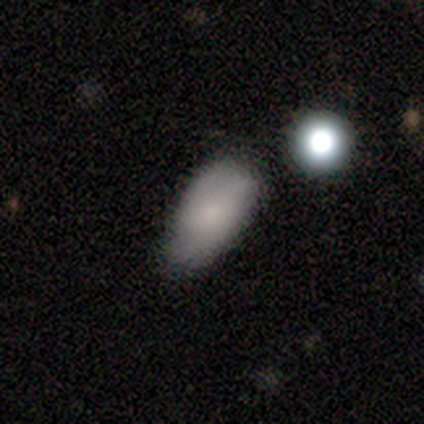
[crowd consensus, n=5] Smooth or featured? smooth (80%)
How rounded? round (50%, tied with in between)
Merging? minor disturbance (60%)